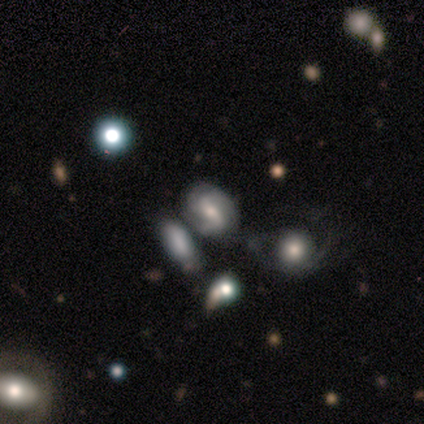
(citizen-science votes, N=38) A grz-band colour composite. It shows a featured or disk galaxy (63%) with a weak bar (50%), 2 (48%) tight (38%) spiral arms (88%) and a moderate central bulge (50%). Merging: none (35%).